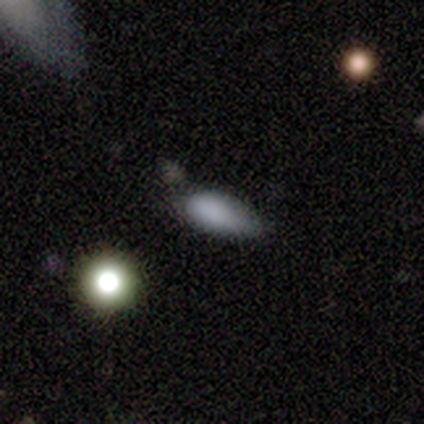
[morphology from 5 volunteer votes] Smooth or featured? star or artifact (60%)